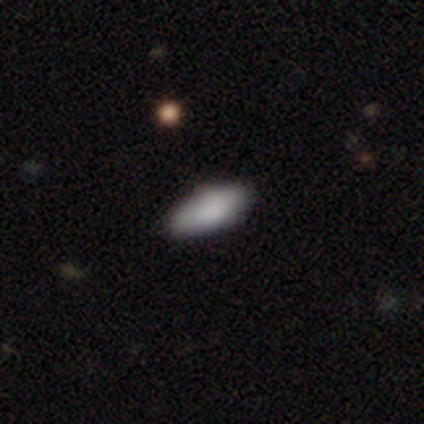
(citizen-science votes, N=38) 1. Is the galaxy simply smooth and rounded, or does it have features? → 84% smooth, 16% featured or disk, 0% star or artifact.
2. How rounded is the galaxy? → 91% in between, 9% cigar-shaped, 0% round.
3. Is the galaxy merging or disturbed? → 68% none, 3% minor disturbance, 3% merger, 0% major disturbance.